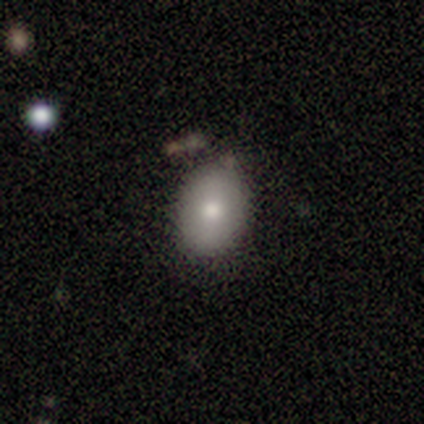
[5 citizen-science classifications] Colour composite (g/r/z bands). It shows a smooth galaxy with no disk features (60%) that is round (67%). Merging: none (80%).